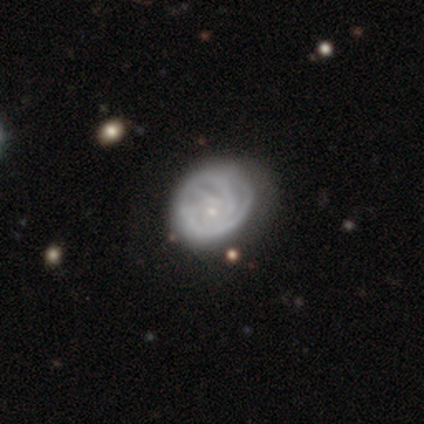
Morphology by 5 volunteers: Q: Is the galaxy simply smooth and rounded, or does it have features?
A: featured or disk — 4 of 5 (80%).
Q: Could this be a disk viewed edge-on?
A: no — 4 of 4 (100%).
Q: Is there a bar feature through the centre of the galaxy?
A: no — 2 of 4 (50%).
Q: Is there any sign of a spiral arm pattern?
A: yes — 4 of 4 (100%).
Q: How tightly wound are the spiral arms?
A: medium — 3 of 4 (75%).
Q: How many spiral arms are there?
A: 3 — 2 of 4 (50%).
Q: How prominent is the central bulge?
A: small — 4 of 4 (100%).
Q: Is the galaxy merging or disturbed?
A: none — 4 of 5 (80%).